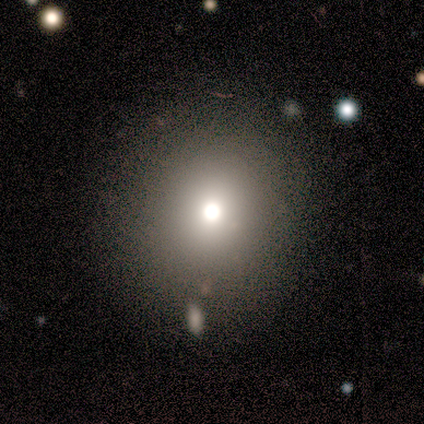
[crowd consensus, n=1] Smooth or featured? smooth (100%)
How rounded? round (100%)
Merging? none (100%)